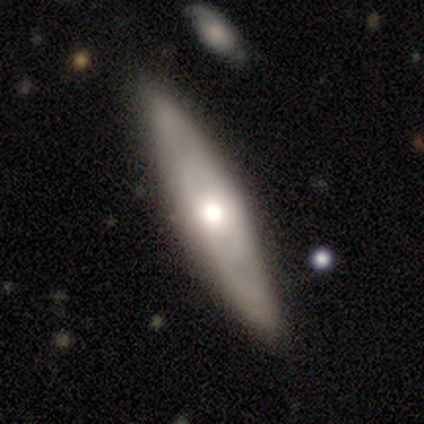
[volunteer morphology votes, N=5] smooth-or-featured: featured or disk: 80% | smooth: 20% | star or artifact: 0%
  disk-edge-on: no: 75% | yes: 25%
    bar: no: 100% | strong: 0% | weak: 0%
    has-spiral-arms: yes: 67% | no: 33%
      spiral-winding: tight: 50% (tied) | medium: 50% (tied) | loose: 0%
      spiral-arm-count: can't tell: 100% | 1: 0% | 2: 0% | 3: 0% | 4: 0% | more than 4: 0%
    bulge-size: moderate: 100% | dominant: 0% | large: 0% | small: 0% | none: 0%
  merging: none: 80% | minor disturbance: 20% | major disturbance: 0% | merger: 0%